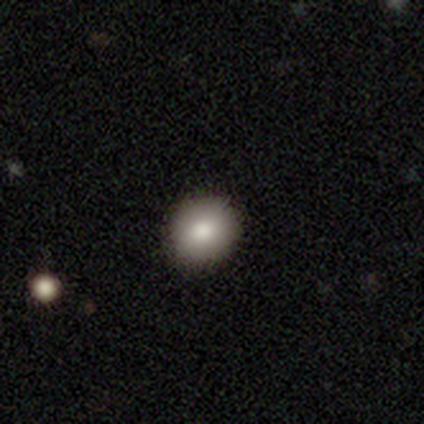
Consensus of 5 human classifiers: smooth-or-featured: smooth: 60% | featured or disk: 20% | star or artifact: 20%
  how-rounded: round: 100% | in between: 0% | cigar-shaped: 0%
  merging: none: 100% | minor disturbance: 0% | major disturbance: 0% | merger: 0%